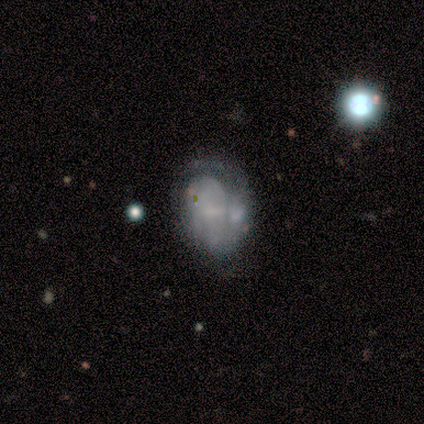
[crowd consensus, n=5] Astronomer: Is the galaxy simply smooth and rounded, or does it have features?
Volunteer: smooth — 60% (runner-up: featured or disk, 40%).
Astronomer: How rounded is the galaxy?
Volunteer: in between — 67%.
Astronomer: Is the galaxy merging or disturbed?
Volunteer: none — 40%, tied with merger at 40%.